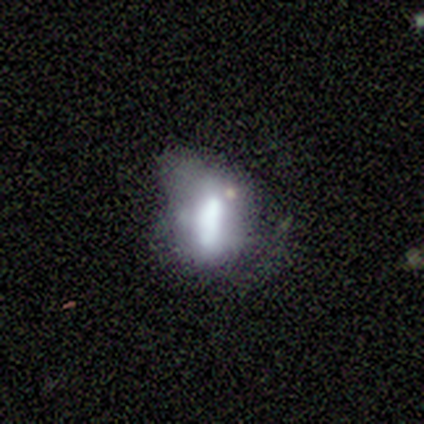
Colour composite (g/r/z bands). It shows a smooth galaxy with no disk features (100%) that is in between round and cigar-shaped (100%). Merging: minor disturbance (60%).